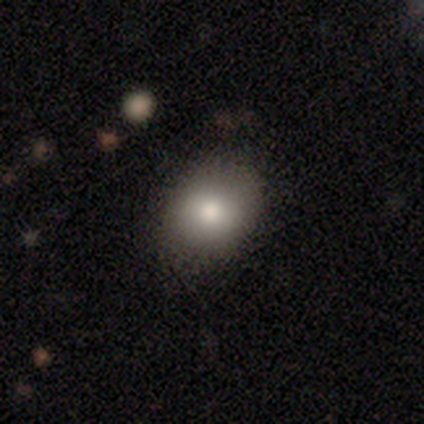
A smooth galaxy with no disk features (60%) that is round (67%).

Vote fractions:
- Smooth or featured? smooth: 60% / featured or disk: 20% / star or artifact: 20%
- How rounded? round: 67% / in between: 33% / cigar-shaped: 0%
- Merging? none: 100% / minor disturbance: 0% / major disturbance: 0% / merger: 0%